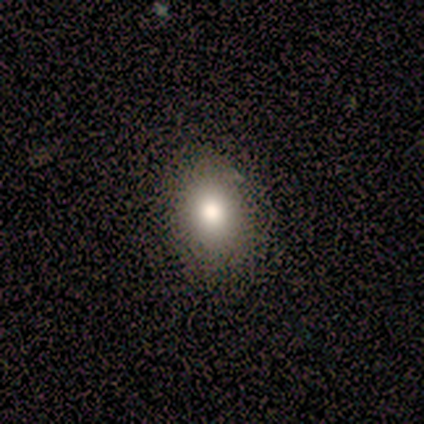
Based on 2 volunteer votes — Smooth or featured?
  - smooth: 50% * (tied)
  - star or artifact: 50% * (tied)
  - featured or disk: 0%
How rounded?
  - in between: 100% *
  - round: 0%
  - cigar-shaped: 0%
Merging?
  - none: 100% *
  - minor disturbance: 0%
  - major disturbance: 0%
  - merger: 0%